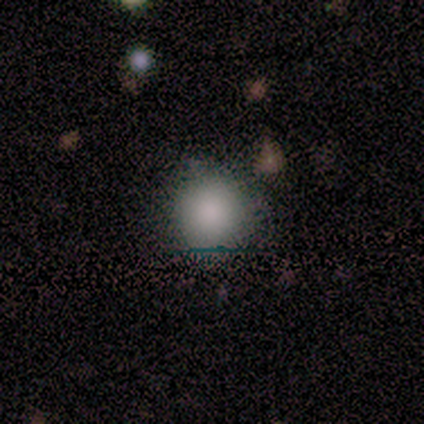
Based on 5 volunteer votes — Morphology: type=smooth (60%); roundness=round (100%); merging=minor disturbance (60%).